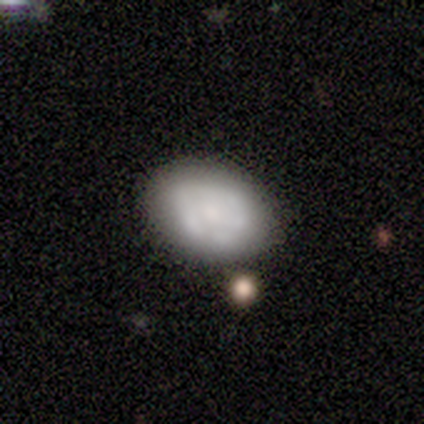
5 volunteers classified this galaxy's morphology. A smooth galaxy with no disk features (60%) that is in between round and cigar-shaped (100%).

Vote fractions:
- Smooth or featured? smooth: 60% / featured or disk: 40% / star or artifact: 0%
- How rounded? in between: 100% / round: 0% / cigar-shaped: 0%
- Merging? none: 100% / minor disturbance: 0% / major disturbance: 0% / merger: 0%